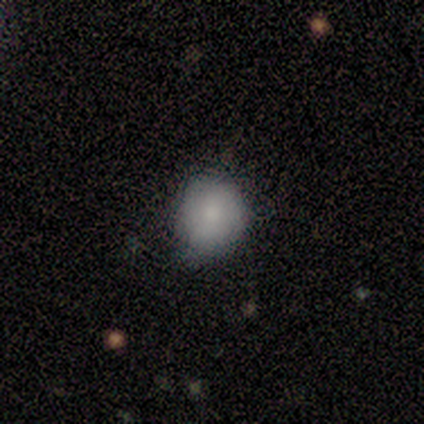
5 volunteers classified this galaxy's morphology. Q: Smooth or featured?
A: featured or disk (60%); runner-up: smooth (40%)
Q: Edge-on disk?
A: no (100%)
Q: Bar?
A: no (100%)
Q: Spiral arms?
A: yes (67%); runner-up: no (33%)
Q: Spiral winding?
A: medium (100%)
Q: Spiral arm count?
A: 2 (50%); tied with: can't tell (50%)
Q: Bulge size?
A: large (67%); runner-up: small (33%)
Q: Merging?
A: none (80%); runner-up: minor disturbance (20%)